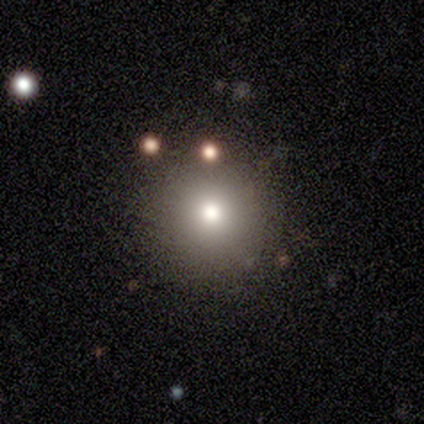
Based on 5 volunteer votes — A smooth galaxy with no disk features (60%) that is round (100%). Merging: none (100%).